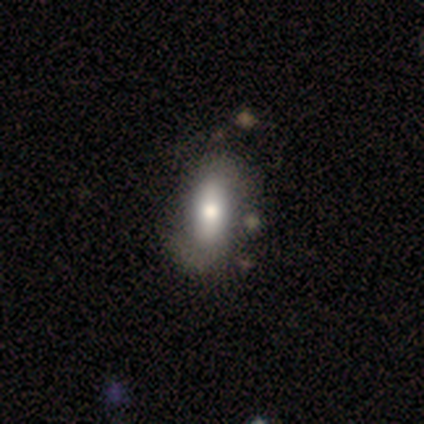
This appears to be a smooth galaxy with no disk features (58%) that is in between round and cigar-shaped (73%). Merging: none (46%).